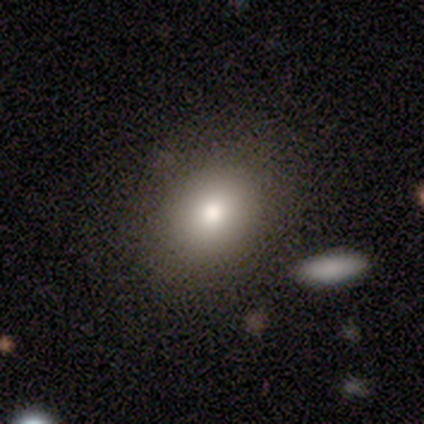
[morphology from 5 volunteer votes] smooth 60%, featured or disk 20%, star or artifact 20%. Down the decision tree: how rounded — round (67%); merging — none (50%).